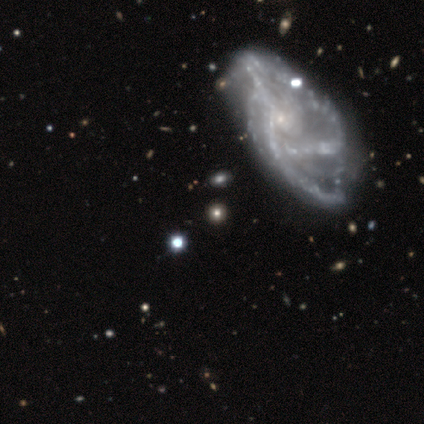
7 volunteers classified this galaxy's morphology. Smooth or featured? featured or disk (86%)
Edge-on disk? no (100%)
Bar? no (67%)
Spiral arms? yes (83%)
Spiral winding? tight (40%, tied with loose)
Spiral arm count? 4 (40%, tied with can't tell)
Bulge size? small (67%)
Merging? none (43%)